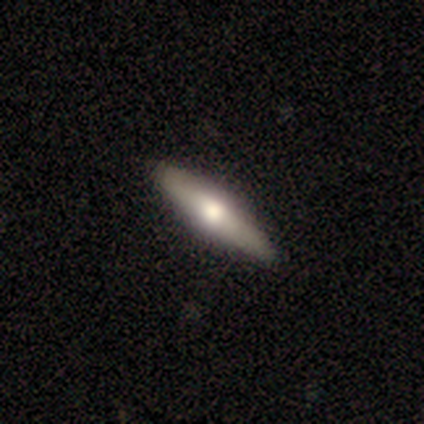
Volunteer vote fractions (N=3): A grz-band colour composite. It shows a smooth galaxy with no disk features (100%) that is cigar-shaped (67%). Merging: none (100%).